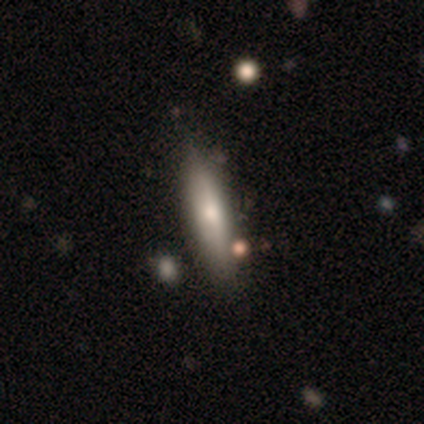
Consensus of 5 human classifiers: Smooth or featured? featured or disk (100%)
Edge-on disk? yes (80%)
Edge-on bulge? rounded (75%)
Merging? minor disturbance (60%)